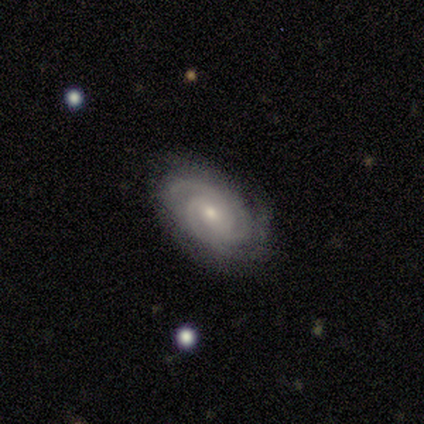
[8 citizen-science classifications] Smooth or featured? featured or disk (88%)
Edge-on disk? no (100%)
Bar? no (71%)
Spiral arms? yes (100%)
Spiral winding? tight (86%)
Spiral arm count? 2 (57%)
Bulge size? small (71%)
Merging? none (86%)